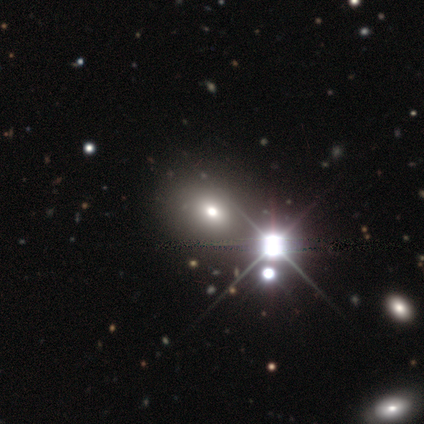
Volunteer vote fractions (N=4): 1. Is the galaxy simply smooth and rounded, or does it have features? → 75% smooth, 25% star or artifact, 0% featured or disk.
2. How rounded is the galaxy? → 100% in between, 0% round, 0% cigar-shaped.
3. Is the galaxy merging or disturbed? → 100% none, 0% minor disturbance, 0% major disturbance, 0% merger.